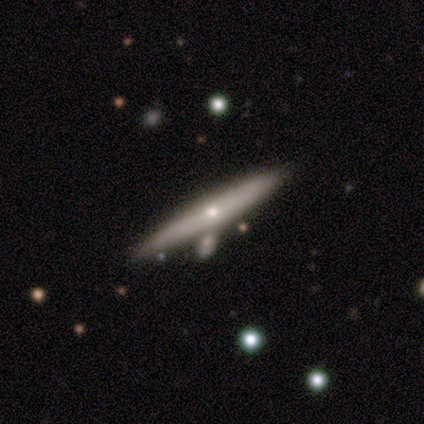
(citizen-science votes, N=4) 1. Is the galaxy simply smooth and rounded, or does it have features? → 75% featured or disk, 25% smooth, 0% star or artifact.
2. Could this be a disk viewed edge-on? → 100% yes, 0% no.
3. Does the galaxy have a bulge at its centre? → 67% rounded, 33% none, 0% boxy.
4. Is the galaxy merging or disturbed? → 100% none, 0% minor disturbance, 0% major disturbance, 0% merger.